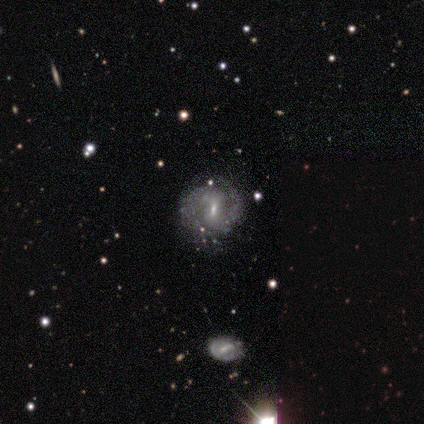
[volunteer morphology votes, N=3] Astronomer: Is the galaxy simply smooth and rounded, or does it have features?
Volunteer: featured or disk — 67%.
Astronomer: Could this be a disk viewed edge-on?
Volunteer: no — 100%.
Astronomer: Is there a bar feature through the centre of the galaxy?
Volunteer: strong — 50%, tied with weak at 50%.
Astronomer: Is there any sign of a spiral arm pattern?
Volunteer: yes — 100%.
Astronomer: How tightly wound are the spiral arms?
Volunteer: tight — 50%, tied with loose at 50%.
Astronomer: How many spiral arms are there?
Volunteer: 2 — 50%, tied with can't tell at 50%.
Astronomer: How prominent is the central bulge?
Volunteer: small — 100%.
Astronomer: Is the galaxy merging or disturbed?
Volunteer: none — 100%.